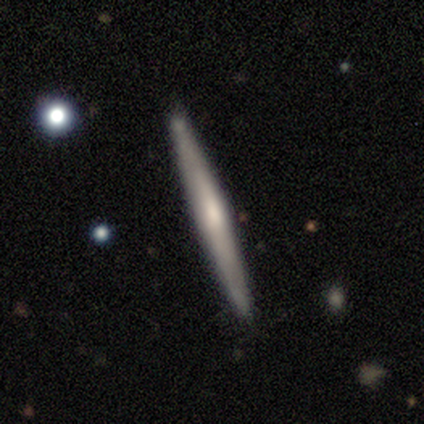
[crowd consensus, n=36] This is likely a featured or disk galaxy (75%). It is clearly viewed edge-on (96%). Edge-on bulge: likely rounded (65%). Merging: clearly none (91%).